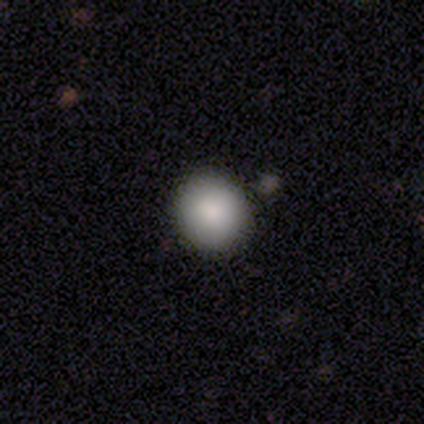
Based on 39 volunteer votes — smooth_or_featured: smooth (p=0.79) [alt: featured or disk p=0.18]
how_rounded: round (p=0.90) [alt: in between p=0.10]
merging: none (p=0.66) [alt: minor disturbance p=0.11]